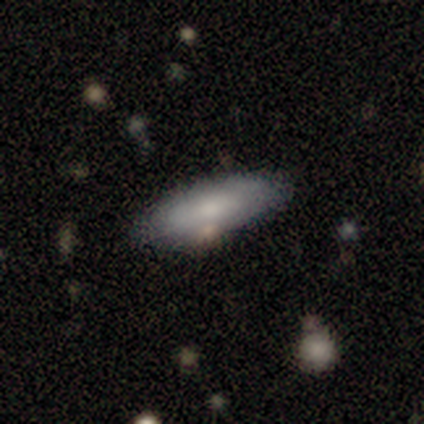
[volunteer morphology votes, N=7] Smooth or featured? smooth (86%)
How rounded? in between (67%)
Merging? none (100%)